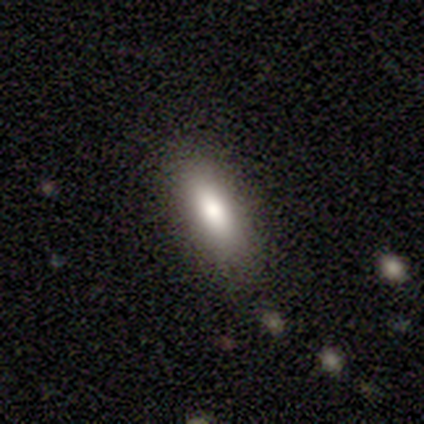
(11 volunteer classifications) This appears to be a smooth galaxy with no disk features (100%) that is in between round and cigar-shaped (73%). Merging: none (91%).